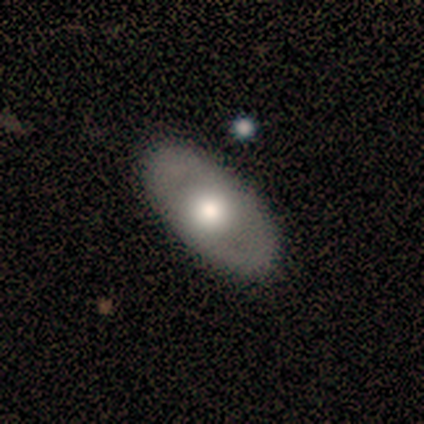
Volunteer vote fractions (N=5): This is likely a featured or disk galaxy (60%). It is likely not viewed edge-on (67%). Bar: clearly no (100%). Spiral arm pattern: clearly no (100%). Central bulge: clearly moderate (100%). Merging: clearly none (100%).